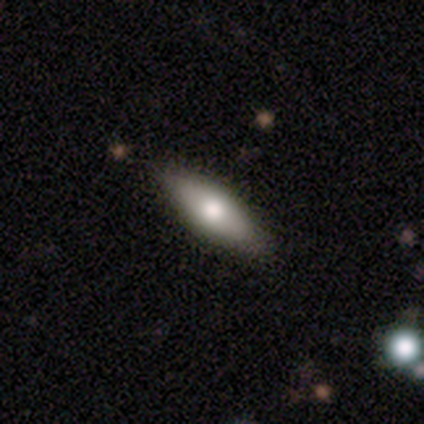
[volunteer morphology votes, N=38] Overall: smooth (71%). How rounded: in between (52%; cigar-shaped 44%). Merging: none (49%).